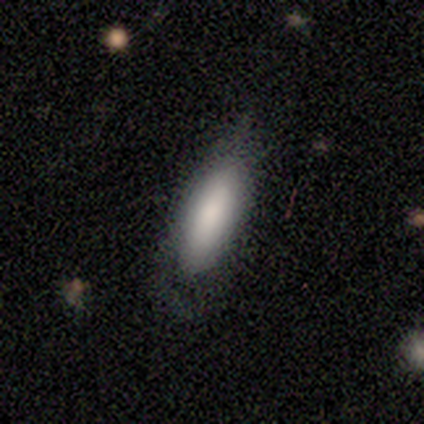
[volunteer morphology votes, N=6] This is possibly a smooth galaxy (50%, tied with featured or disk). How rounded: clearly in between (100%). Merging: clearly none (83%).